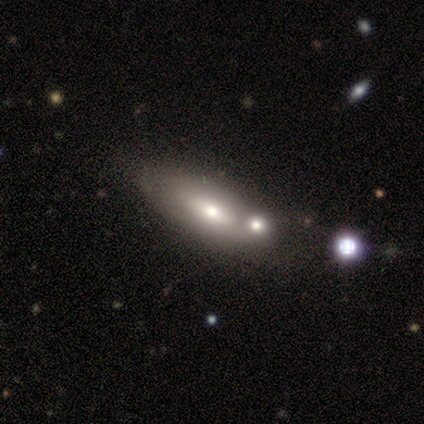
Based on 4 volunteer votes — Smooth or featured?
  - smooth: 50% * (tied)
  - featured or disk: 50% * (tied)
  - star or artifact: 0%
How rounded?
  - in between: 100% *
  - round: 0%
  - cigar-shaped: 0%
Merging?
  - none: 75% *
  - merger: 25%
  - minor disturbance: 0%
  - major disturbance: 0%